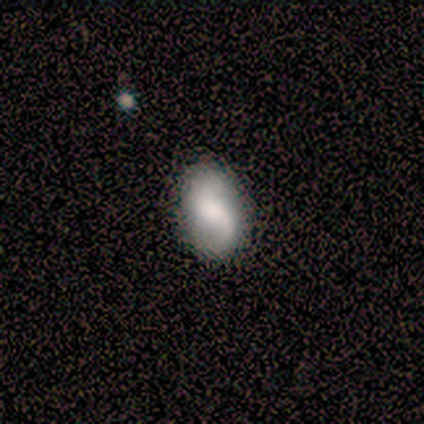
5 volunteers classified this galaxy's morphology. Smooth or featured: smooth — 80% (featured or disk — 20%)
How rounded: in between — 100%
Merging: none — 60% (major disturbance — 20%)